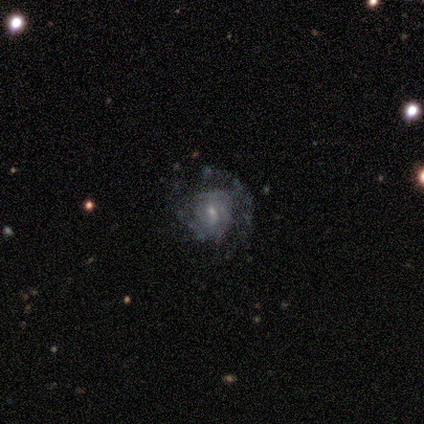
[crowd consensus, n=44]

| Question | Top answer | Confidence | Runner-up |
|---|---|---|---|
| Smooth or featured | featured or disk | 77% | smooth (18%) |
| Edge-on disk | no | 100% | — |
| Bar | no | 62% | weak (35%) |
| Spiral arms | yes | 56% | no (44%) |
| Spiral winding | tight | 68% | medium (32%) |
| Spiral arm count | can't tell | 58% | 1 (21%) |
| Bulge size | small | 76% | moderate (21%) |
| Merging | none | 52% | major disturbance (24%) |